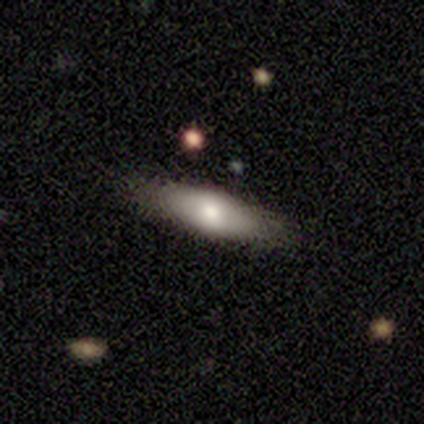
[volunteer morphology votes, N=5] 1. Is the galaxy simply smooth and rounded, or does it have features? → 80% smooth, 20% featured or disk, 0% star or artifact.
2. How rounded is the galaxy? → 75% in between, 25% cigar-shaped, 0% round.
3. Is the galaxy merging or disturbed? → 80% none, 20% minor disturbance, 0% major disturbance, 0% merger.